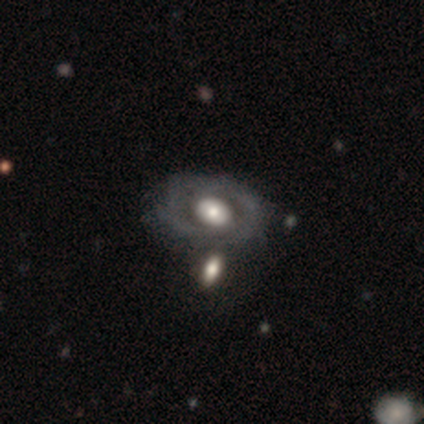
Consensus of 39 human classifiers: This appears to be a featured or disk galaxy (54%) with no bar (76%), tight (45%) spiral arms (52%) and a large central bulge (38%). Merging: none (58%).